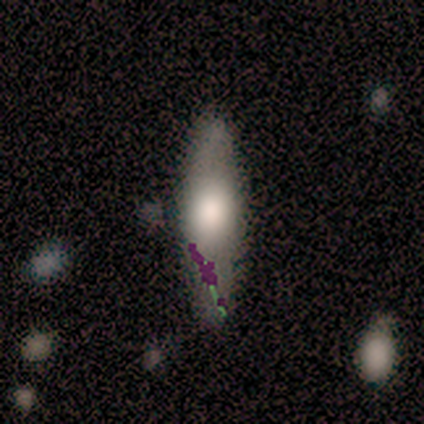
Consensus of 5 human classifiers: Smooth or featured? smooth (80%)
How rounded? cigar-shaped (75%)
Merging? none (80%)